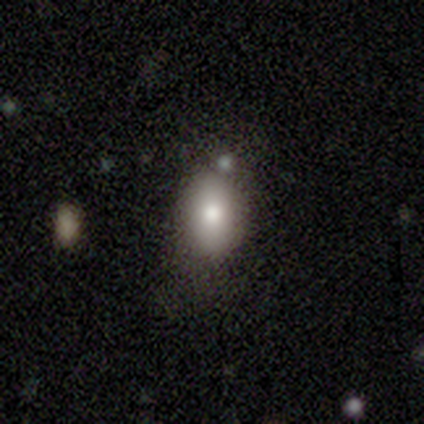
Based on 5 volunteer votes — Smooth or featured: smooth — 100%
How rounded: in between — 100%
Merging: none — 60% (minor disturbance — 40%)